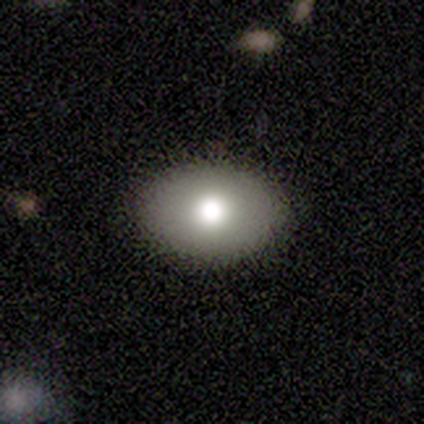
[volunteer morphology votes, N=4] type=smooth (75%); roundness=in between (100%); merging=none (67%).